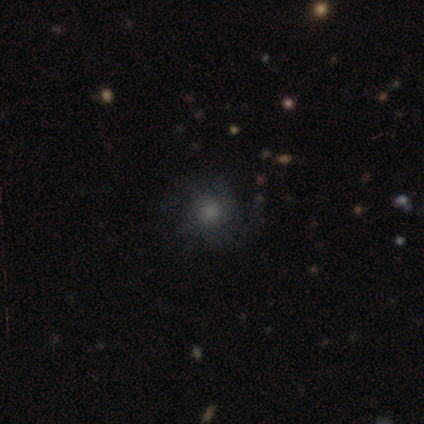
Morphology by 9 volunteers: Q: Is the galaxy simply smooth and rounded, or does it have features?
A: smooth — 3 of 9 (33%, tied with featured or disk and star or artifact).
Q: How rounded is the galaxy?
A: round — 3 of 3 (100%).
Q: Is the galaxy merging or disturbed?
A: none — 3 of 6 (50%, tied with minor disturbance).